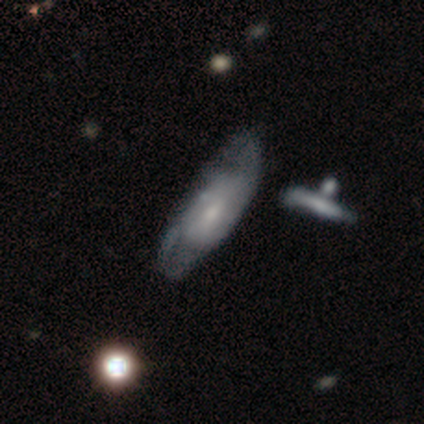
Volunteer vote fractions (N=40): A featured or disk galaxy (68%) with a weak bar (67%), tight (41%, tied with medium) spiral arms (71%) and a small central bulge (62%). Merging: none (25%).